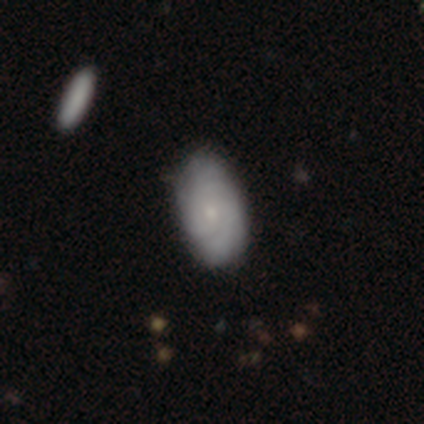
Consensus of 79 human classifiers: This is possibly a featured or disk galaxy (52%). It is clearly not viewed edge-on (98%). Bar: clearly no (95%). Spiral arm pattern: clearly yes (85%). Spiral arm count: likely can't tell (76%). Spiral winding: likely tight (76%). Central bulge: likely small (70%). Merging: marginally none (40%).